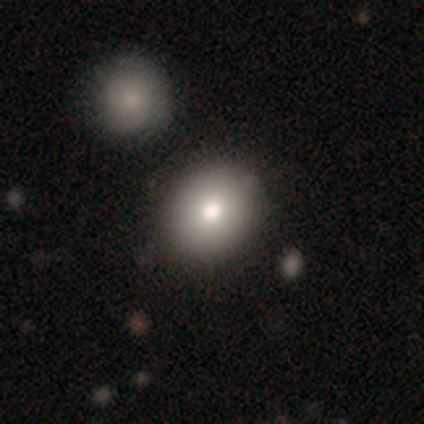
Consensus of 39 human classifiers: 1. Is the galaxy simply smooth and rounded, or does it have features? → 87% smooth, 13% featured or disk, 0% star or artifact.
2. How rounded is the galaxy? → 74% round, 26% in between, 0% cigar-shaped.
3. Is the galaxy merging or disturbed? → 54% none, 10% merger, 3% major disturbance, 0% minor disturbance.